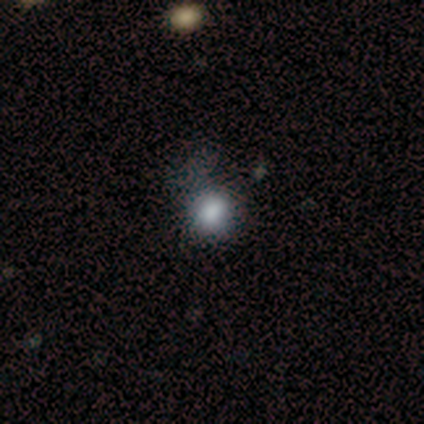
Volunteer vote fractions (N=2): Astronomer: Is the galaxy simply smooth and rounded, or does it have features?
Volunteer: smooth — 50%, tied with star or artifact at 50%.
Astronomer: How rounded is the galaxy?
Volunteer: in between — 100%.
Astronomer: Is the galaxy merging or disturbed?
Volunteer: major disturbance — 100%.